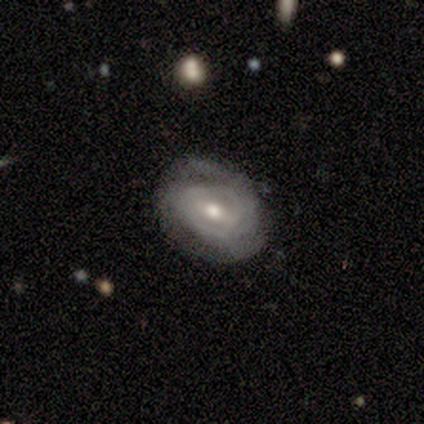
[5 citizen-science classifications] smooth-or-featured: featured or disk: 80% | smooth: 20% | star or artifact: 0%
  disk-edge-on: no: 100% | yes: 0%
    bar: weak: 75% | strong: 25% | no: 0%
    has-spiral-arms: yes: 75% | no: 25%
      spiral-winding: tight: 100% | medium: 0% | loose: 0%
      spiral-arm-count: can't tell: 100% | 1: 0% | 2: 0% | 3: 0% | 4: 0% | more than 4: 0%
    bulge-size: moderate: 100% | dominant: 0% | large: 0% | small: 0% | none: 0%
  merging: minor disturbance: 60% | none: 20% | major disturbance: 20% | merger: 0%